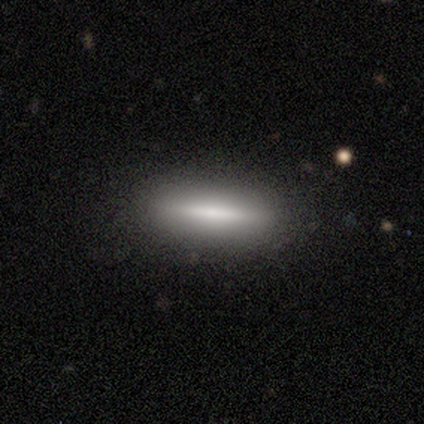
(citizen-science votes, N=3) This appears to be a smooth galaxy with no disk features (100%) that is cigar-shaped (67%). Merging: none (100%).